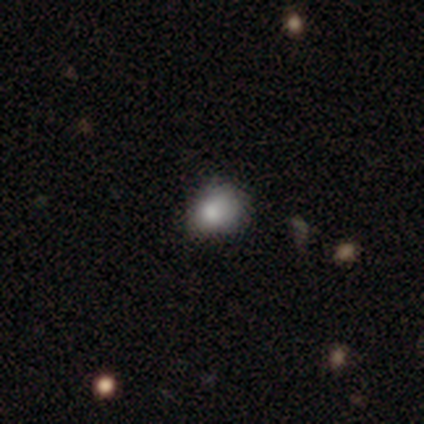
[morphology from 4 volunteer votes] Volunteers were most divided on "merging" (2-way tie): none: 50%, minor disturbance: 50%, major disturbance: 0%, merger: 0%. More confident: how rounded — round (100%); smooth or featured — smooth (75%).